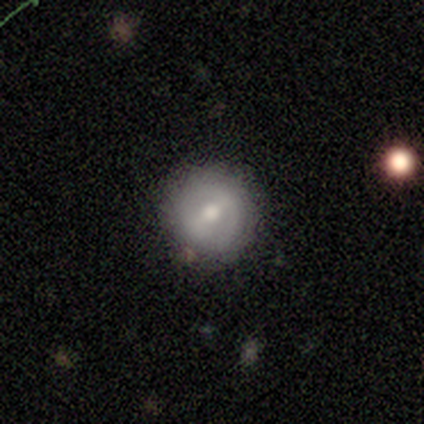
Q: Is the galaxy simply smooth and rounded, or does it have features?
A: smooth — 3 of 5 (60%).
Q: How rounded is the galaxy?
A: round — 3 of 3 (100%).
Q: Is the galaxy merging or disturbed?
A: none — 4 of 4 (100%).